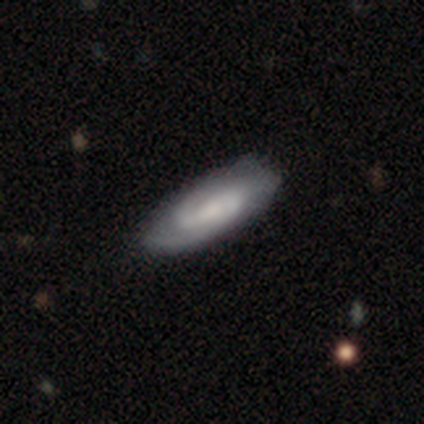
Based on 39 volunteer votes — Smooth or featured: featured or disk — 82% (smooth — 15%)
Edge-on disk: no — 88% (yes — 12%)
Bar: weak — 68% (no — 25%)
Spiral arms: yes — 100%
Spiral winding: tight — 46% (medium — 29%)
Spiral arm count: 2 — 79% (can't tell — 11%)
Bulge size: small — 54% (moderate — 29%)
Merging: none — 63% (minor disturbance — 13%)